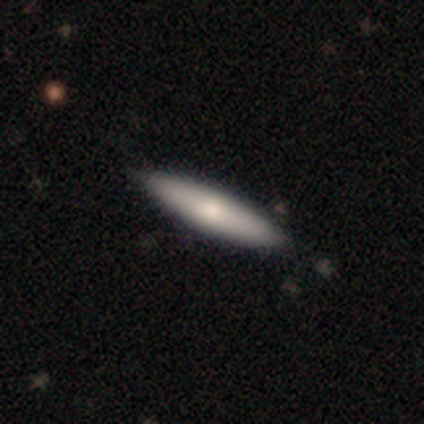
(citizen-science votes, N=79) Smooth or featured?
  - smooth: 75% *
  - featured or disk: 25%
  - star or artifact: 0%
How rounded?
  - cigar-shaped: 83% *
  - in between: 17%
  - round: 0%
Merging?
  - none: 44% *
  - minor disturbance: 5%
  - merger: 5%
  - major disturbance: 0%